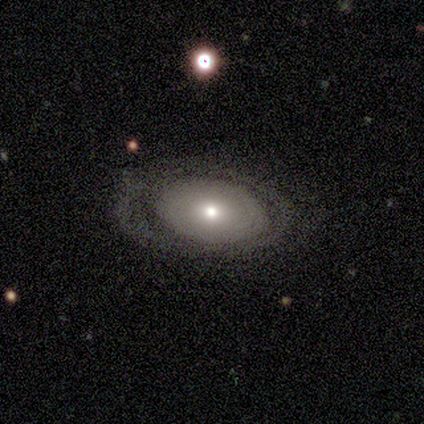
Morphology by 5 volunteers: This is marginally a smooth galaxy (40%, tied with featured or disk). How rounded: clearly in between (100%). Merging: likely none (75%).